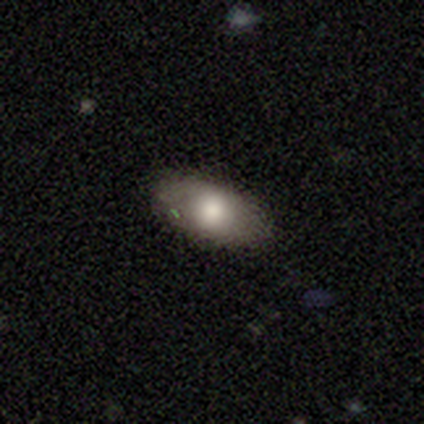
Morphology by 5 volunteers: Overall: smooth (40%, tied with featured or disk). How rounded: in between (100%). Merging: none (75%).